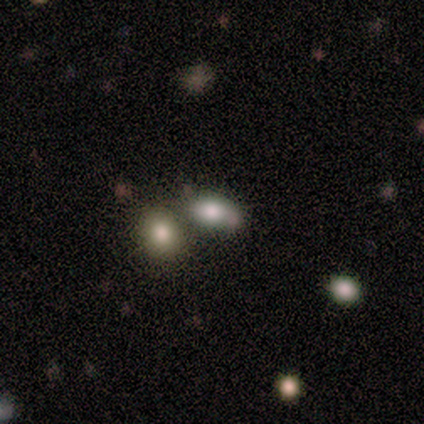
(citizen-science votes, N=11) This appears to be a smooth galaxy with no disk features (73%) that is in between round and cigar-shaped (50%). Merging: none (50%).